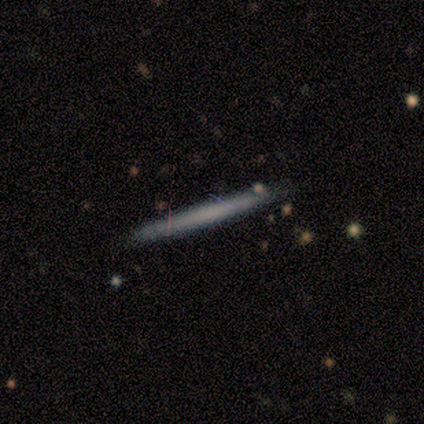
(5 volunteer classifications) Smooth or featured? featured or disk (60%)
Edge-on disk? yes (100%)
Edge-on bulge? none (100%)
Merging? none (100%)